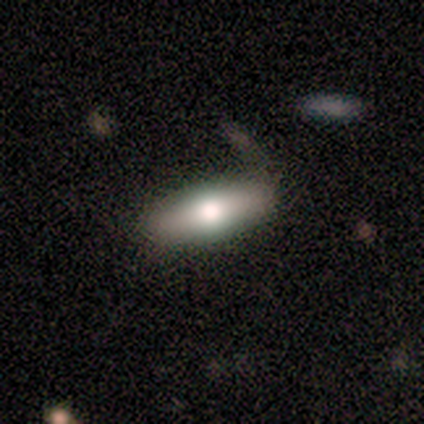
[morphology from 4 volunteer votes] A smooth galaxy with no disk features (75%) that is in between round and cigar-shaped (67%). Merging: none (75%).